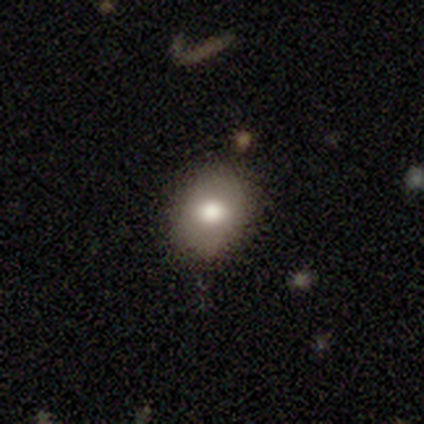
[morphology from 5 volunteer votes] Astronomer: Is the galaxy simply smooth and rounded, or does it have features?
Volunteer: smooth — 100%.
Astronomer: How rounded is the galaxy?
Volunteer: in between — 80%.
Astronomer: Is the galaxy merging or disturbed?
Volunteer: none — 80%.